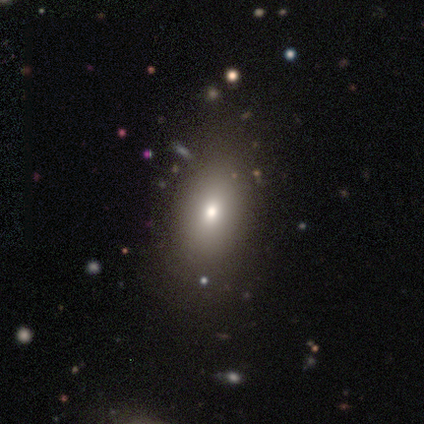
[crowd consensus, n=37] Smooth or featured? smooth (89%)
How rounded? in between (82%)
Merging? none (50%)